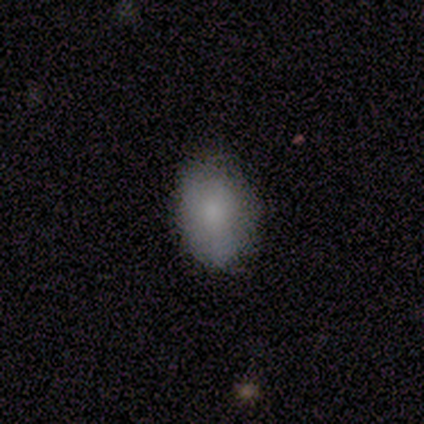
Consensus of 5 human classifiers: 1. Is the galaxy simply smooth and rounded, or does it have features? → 100% smooth, 0% featured or disk, 0% star or artifact.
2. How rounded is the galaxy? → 60% in between, 40% round, 0% cigar-shaped.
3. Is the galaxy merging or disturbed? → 100% none, 0% minor disturbance, 0% major disturbance, 0% merger.